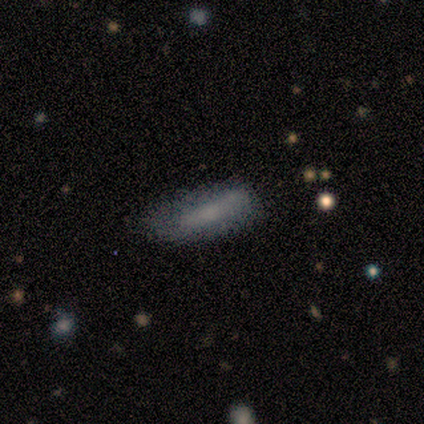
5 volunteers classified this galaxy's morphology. A smooth galaxy with no disk features (60%) that is cigar-shaped (67%).

Vote fractions:
- Smooth or featured? smooth: 60% / featured or disk: 40% / star or artifact: 0%
- How rounded? cigar-shaped: 67% / in between: 33% / round: 0%
- Merging? none: 60% / minor disturbance: 40% / major disturbance: 0% / merger: 0%